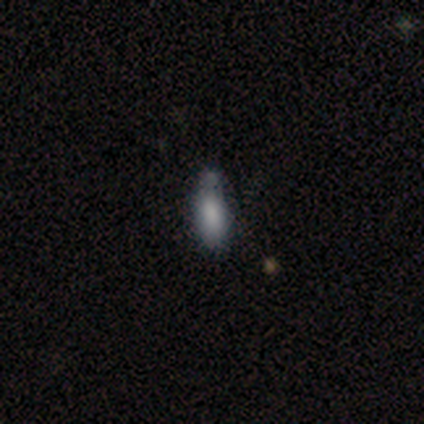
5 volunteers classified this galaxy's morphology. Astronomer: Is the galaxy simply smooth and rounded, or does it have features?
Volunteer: smooth — 100%.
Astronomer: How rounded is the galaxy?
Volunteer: in between — 80%.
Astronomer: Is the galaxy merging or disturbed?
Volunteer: none — 40%, tied with minor disturbance at 40%.